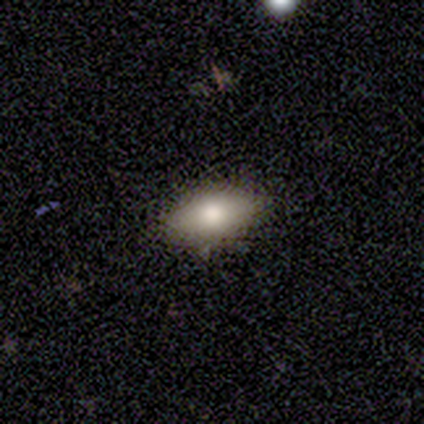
smooth-or-featured: smooth: 100% | featured or disk: 0% | star or artifact: 0%
  how-rounded: in between: 80% | cigar-shaped: 20% | round: 0%
  merging: none: 100% | minor disturbance: 0% | major disturbance: 0% | merger: 0%